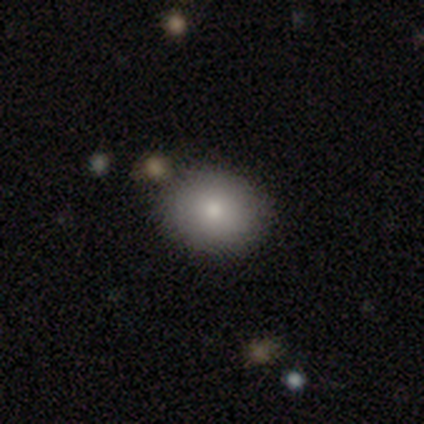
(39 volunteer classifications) smooth-or-featured: smooth: 85% | featured or disk: 10% | star or artifact: 5%
  how-rounded: round: 64% | in between: 36% | cigar-shaped: 0%
  merging: none: 84% | minor disturbance: 14% | merger: 3% | major disturbance: 0%